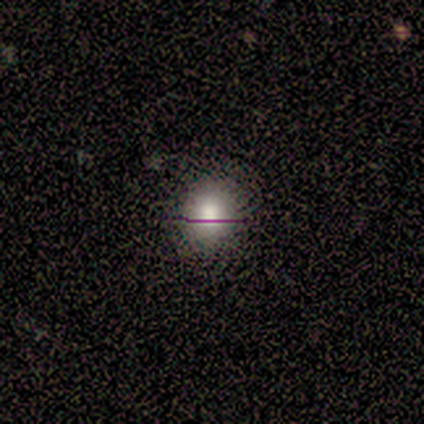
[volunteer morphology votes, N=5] smooth_or_featured: smooth (p=0.80) [alt: featured or disk p=0.20]
how_rounded: round (p=0.75) [alt: in between p=0.25]
merging: none (p=1.00)